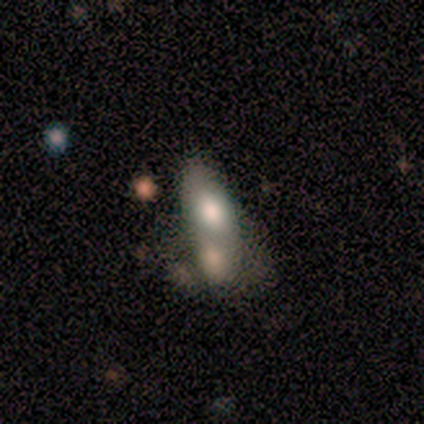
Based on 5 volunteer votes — Q: Smooth or featured?
A: featured or disk (60%); runner-up: smooth (20%)
Q: Edge-on disk?
A: no (100%)
Q: Bar?
A: no (67%); runner-up: strong (33%)
Q: Spiral arms?
A: no (100%)
Q: Bulge size?
A: large (67%); runner-up: moderate (33%)
Q: Merging?
A: merger (75%); runner-up: minor disturbance (25%)